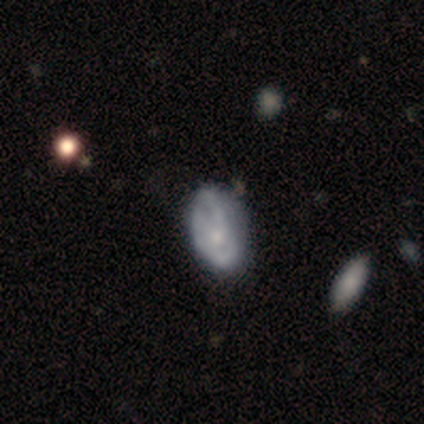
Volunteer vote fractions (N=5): Volunteers were most divided on "bulge size" (3-way tie): moderate: 33%, small: 33%, none: 33%, dominant: 0%, large: 0%. More confident: edge-on disk — no (100%); bar — no (100%); spiral arms — yes (100%); spiral winding — medium (67%); spiral arm count — can't tell (67%); smooth or featured — featured or disk (60%); merging — none (60%).